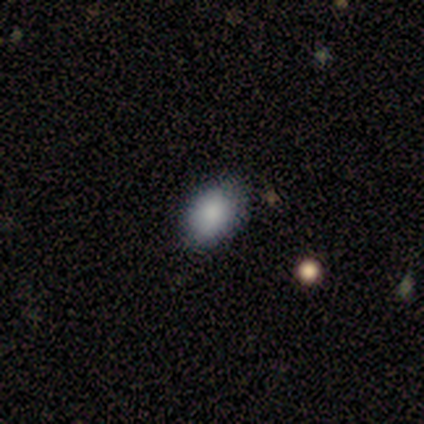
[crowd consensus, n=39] This is likely a smooth galaxy (79%). How rounded: likely in between (68%). Merging: likely none (77%).